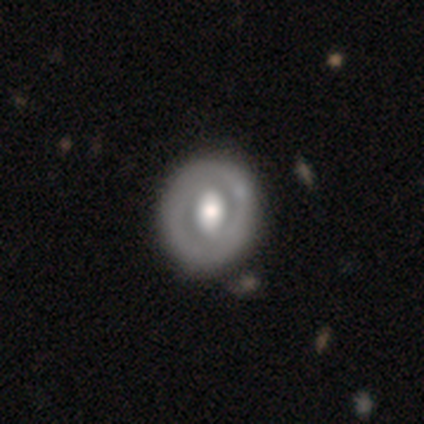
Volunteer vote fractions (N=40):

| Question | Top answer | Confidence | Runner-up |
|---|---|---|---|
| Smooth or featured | featured or disk | 78% | smooth (20%) |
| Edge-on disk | no | 94% | yes (6%) |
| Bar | weak | 38% | strong (34%) |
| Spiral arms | no | 72% | yes (28%) |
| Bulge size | large | 48% | moderate (45%) |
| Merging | none | 54% | minor disturbance (5%) |